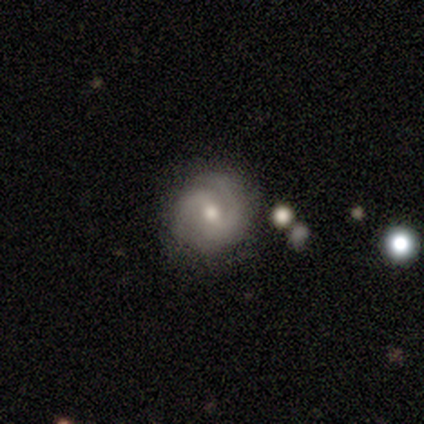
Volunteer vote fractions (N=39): smooth_or_featured: featured or disk (p=0.72) [alt: smooth p=0.23]
disk_edge_on: no (p=1.00)
bar: weak (p=0.46) [alt: no p=0.32]
has_spiral_arms: yes (p=0.96) [alt: no p=0.04]
spiral_winding: medium (p=0.48) [alt: tight p=0.41]
spiral_arm_count: 2 (p=0.78) [alt: 3 p=0.15]
bulge_size: moderate (p=0.71) [alt: small p=0.25]
merging: none (p=0.76) [alt: minor disturbance p=0.22]